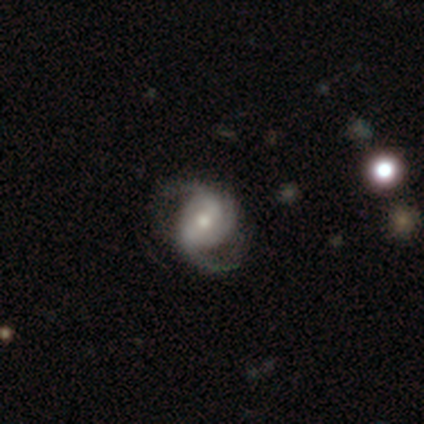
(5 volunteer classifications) A featured or disk galaxy (100%) with a weak bar (80%), 3 (60%) medium (60%) spiral arms (100%) and a small central bulge (60%).

Vote fractions:
- Smooth or featured? featured or disk: 100% / smooth: 0% / star or artifact: 0%
- Edge-on disk? no: 100% / yes: 0%
- Bar? weak: 80% / strong: 20% / no: 0%
- Spiral arms? yes: 100% / no: 0%
- Spiral winding? medium: 60% / loose: 40% / tight: 0%
- Spiral arm count? 3: 60% / 2: 40% / 1: 0% / 4: 0% / more than 4: 0% / can't tell: 0%
- Bulge size? small: 60% / moderate: 40% / dominant: 0% / large: 0% / none: 0%
- Merging? none: 100% / minor disturbance: 0% / major disturbance: 0% / merger: 0%